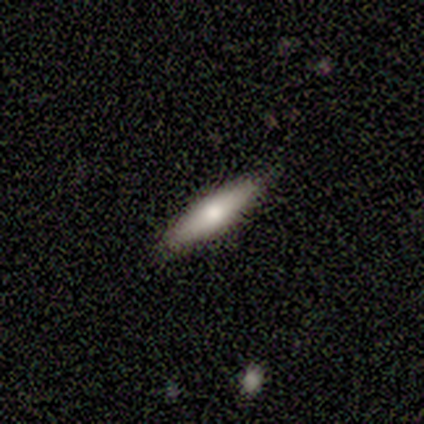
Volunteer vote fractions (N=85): Smooth or featured? smooth (61%)
How rounded? cigar-shaped (81%)
Merging? none (91%)